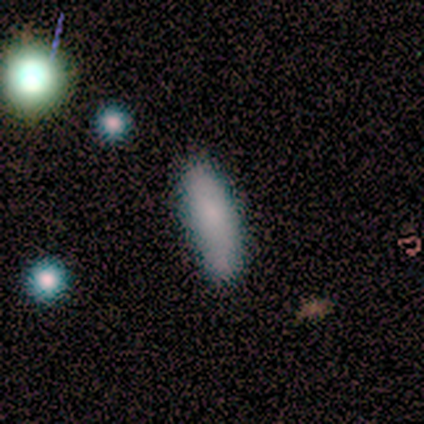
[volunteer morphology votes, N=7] Smooth or featured: smooth — 86% (featured or disk — 14%)
How rounded: in between — 67% (cigar-shaped — 33%)
Merging: none — 86% (minor disturbance — 14%)